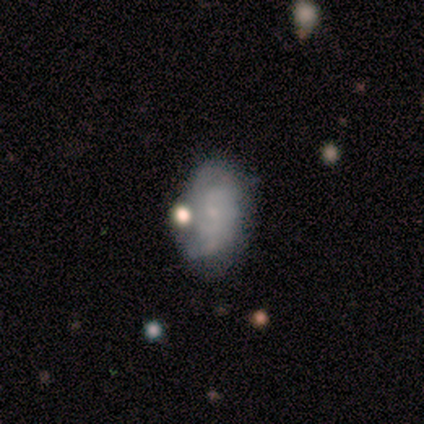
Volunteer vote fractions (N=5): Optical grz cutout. It shows a featured or disk galaxy (60%) with no bar (67%), tight (50%, tied with loose) spiral arms (67%) and no central bulge (67%). Merging: none (60%).